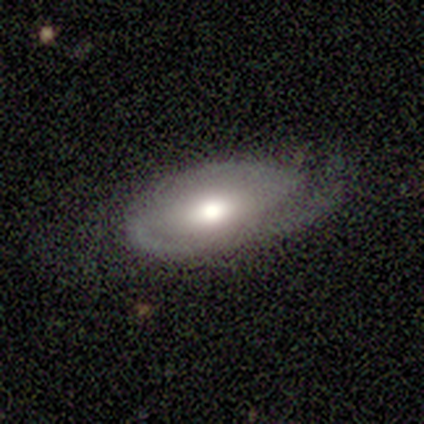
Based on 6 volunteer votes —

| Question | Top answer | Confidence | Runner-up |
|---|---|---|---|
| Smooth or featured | featured or disk | 100% | — |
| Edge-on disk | no | 100% | — |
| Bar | no | 50% | weak (33%) |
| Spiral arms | yes | 100% | — |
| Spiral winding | tight | 67% | medium (33%) |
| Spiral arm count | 2 | 83% | 4 (17%) |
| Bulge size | moderate | 83% | large (17%) |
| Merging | none | 67% | minor disturbance (17%) |